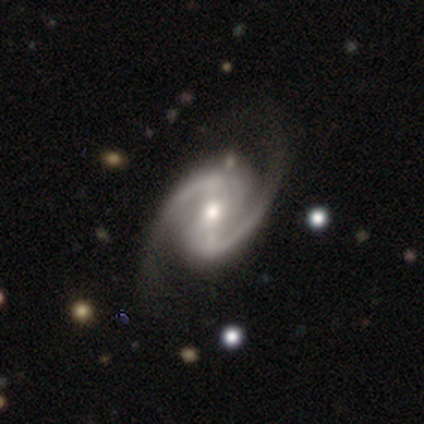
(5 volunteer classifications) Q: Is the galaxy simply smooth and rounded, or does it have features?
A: featured or disk — 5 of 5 (100%).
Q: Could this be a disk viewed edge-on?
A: no — 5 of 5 (100%).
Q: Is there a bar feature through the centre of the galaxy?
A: strong — 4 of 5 (80%).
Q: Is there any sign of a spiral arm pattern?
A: yes — 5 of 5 (100%).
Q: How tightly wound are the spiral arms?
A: loose — 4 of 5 (80%).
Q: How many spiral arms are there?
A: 2 — 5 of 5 (100%).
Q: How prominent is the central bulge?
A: moderate — 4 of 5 (80%).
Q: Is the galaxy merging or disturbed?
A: none — 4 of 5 (80%).